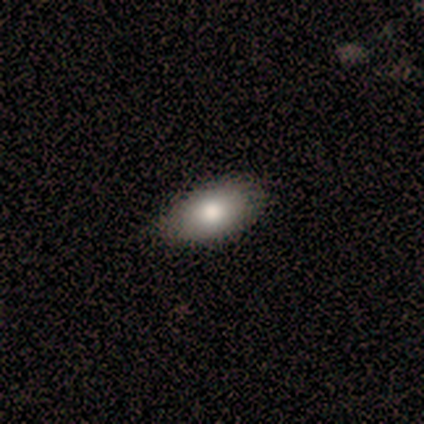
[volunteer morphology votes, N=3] smooth-or-featured: smooth: 67% | star or artifact: 33% | featured or disk: 0%
  how-rounded: in between: 100% | round: 0% | cigar-shaped: 0%
  merging: none: 100% | minor disturbance: 0% | major disturbance: 0% | merger: 0%